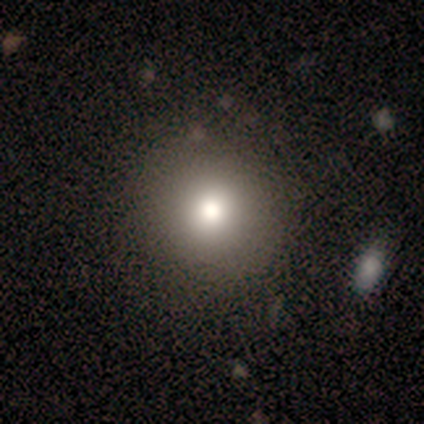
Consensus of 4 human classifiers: Morphology: type=smooth (75%); roundness=round (100%); merging=none (75%).